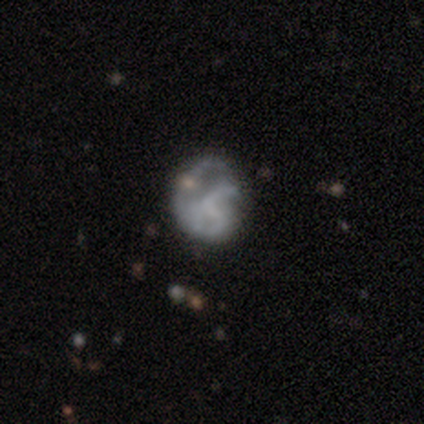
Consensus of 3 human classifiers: A featured or disk galaxy (67%) with a weak bar (50%, tied with no), 1 (50%, tied with 2) loose (100%) spiral arms (100%) and no central bulge (100%). Merging: none (50%, tied with major disturbance).